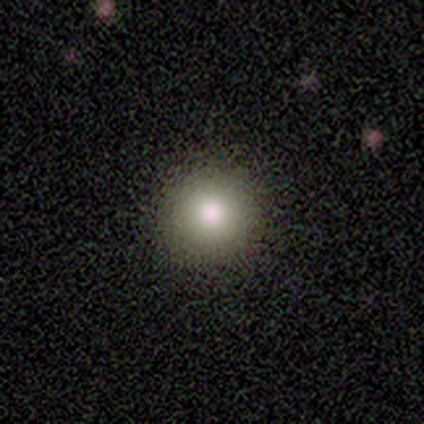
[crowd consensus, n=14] Overall: smooth (79%). How rounded: round (100%). Merging: none (100%).